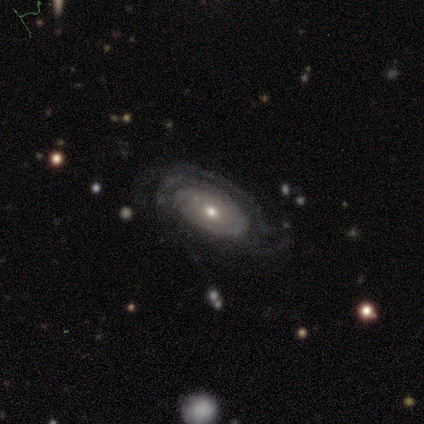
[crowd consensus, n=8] featured or disk 100%, smooth 0%, star or artifact 0%. Down the decision tree: edge-on disk — no (88%); bar — no (86%); spiral arms — yes (86%); spiral arm count — 3 (33%); spiral winding — tight (50%); bulge size — small (57%); merging — none (88%).